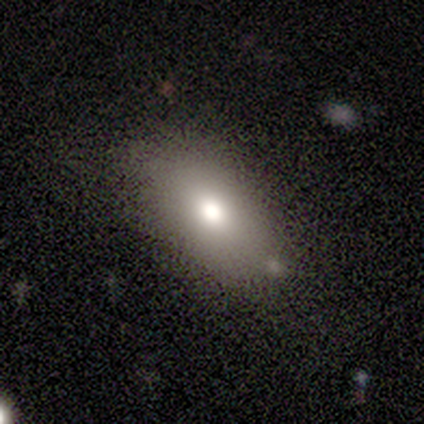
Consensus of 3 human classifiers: Overall: smooth (100%). How rounded: in between (67%; round 33%). Merging: none (100%).